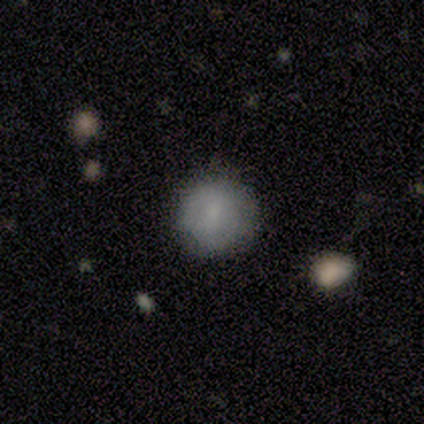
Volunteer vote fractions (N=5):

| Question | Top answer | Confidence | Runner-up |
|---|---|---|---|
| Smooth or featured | smooth | 40% | tied: star or artifact (40%) |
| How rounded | round | 100% | — |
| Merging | none | 100% | — |